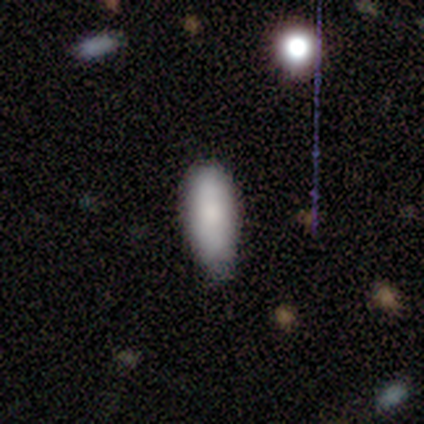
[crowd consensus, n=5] Volunteers were most divided on "merging": none: 75%, minor disturbance: 25%, major disturbance: 0%, merger: 0%. More confident: how rounded — in between (100%); smooth or featured — smooth (80%).